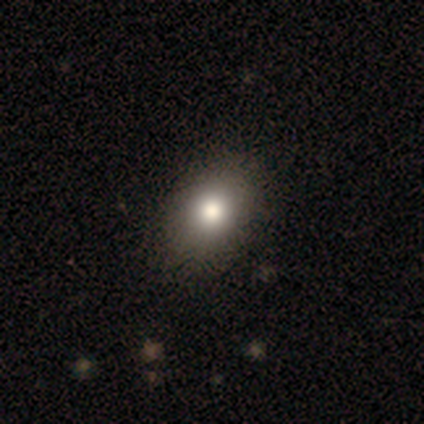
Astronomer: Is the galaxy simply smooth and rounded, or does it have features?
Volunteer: smooth — 80%.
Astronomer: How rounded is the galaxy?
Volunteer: in between — 75%.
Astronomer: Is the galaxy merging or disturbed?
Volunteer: none — 75%.